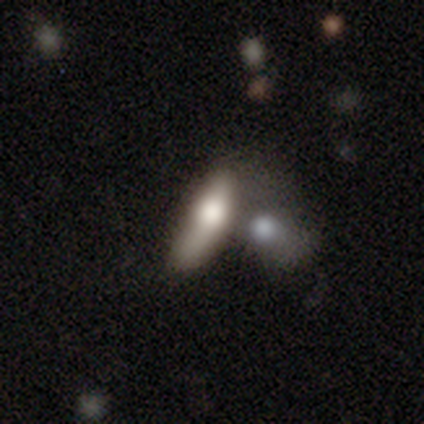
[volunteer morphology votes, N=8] Q: Smooth or featured?
A: smooth (100%)
Q: How rounded?
A: in between (62%); runner-up: cigar-shaped (38%)
Q: Merging?
A: none (38%); tied with: merger (38%)